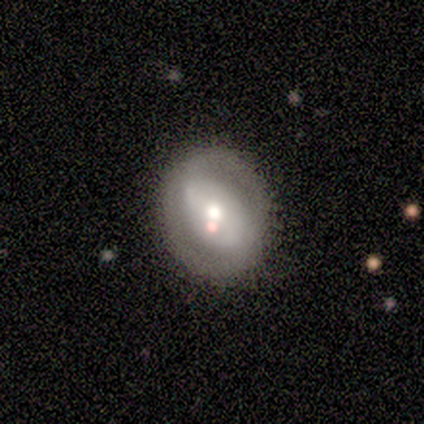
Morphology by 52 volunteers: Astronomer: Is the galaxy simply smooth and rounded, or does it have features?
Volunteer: featured or disk — 73%.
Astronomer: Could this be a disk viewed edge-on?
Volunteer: no — 97%.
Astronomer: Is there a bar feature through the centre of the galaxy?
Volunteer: no — 46% (runner-up: strong, 35%).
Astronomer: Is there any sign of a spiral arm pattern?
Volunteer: no — 57% (runner-up: yes, 43%).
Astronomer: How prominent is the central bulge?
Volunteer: moderate — 59%.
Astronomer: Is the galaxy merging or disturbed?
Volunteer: none — 67%.